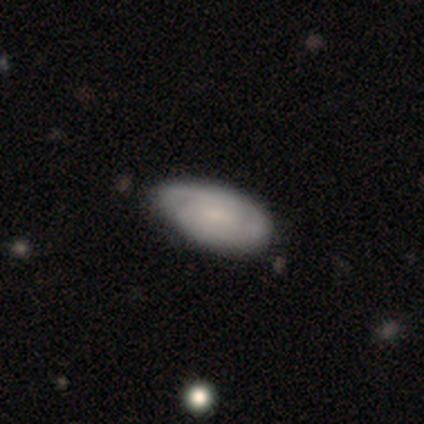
A featured or disk galaxy (60%) with no bar (67%), 2 (50%, tied with can't tell) tight (100%) spiral arms (67%) and a small central bulge (100%). Merging: none (40%, tied with minor disturbance).